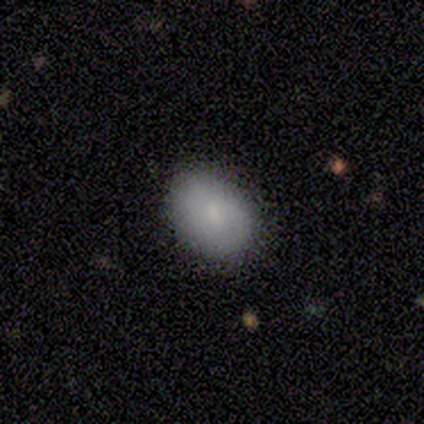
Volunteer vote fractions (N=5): This is likely a smooth galaxy (60%). How rounded: clearly in between (100%). Merging: likely none (75%).